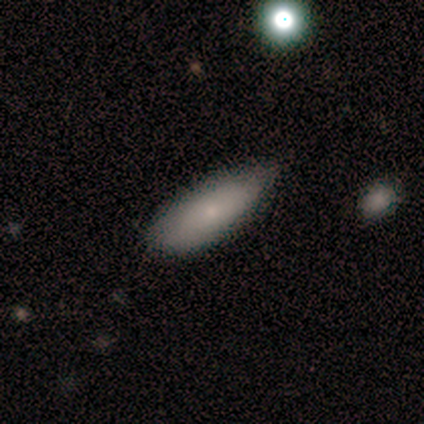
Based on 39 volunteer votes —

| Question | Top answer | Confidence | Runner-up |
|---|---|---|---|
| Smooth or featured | smooth | 77% | featured or disk (13%) |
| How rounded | in between | 60% | cigar-shaped (37%) |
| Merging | none | 71% | minor disturbance (26%) |